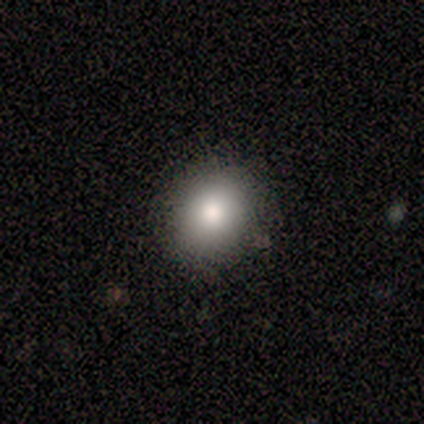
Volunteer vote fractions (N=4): Q: Smooth or featured?
A: smooth (75%); runner-up: star or artifact (25%)
Q: How rounded?
A: round (67%); runner-up: in between (33%)
Q: Merging?
A: none (67%); runner-up: minor disturbance (33%)